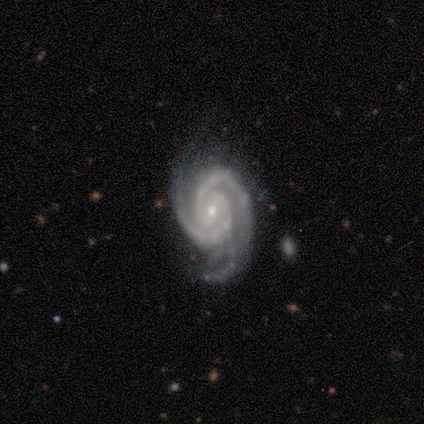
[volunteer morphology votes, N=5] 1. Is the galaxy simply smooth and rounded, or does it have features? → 80% featured or disk, 20% star or artifact, 0% smooth.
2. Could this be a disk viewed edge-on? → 100% no, 0% yes.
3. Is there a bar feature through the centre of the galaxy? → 75% no, 25% weak, 0% strong.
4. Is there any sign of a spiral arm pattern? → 100% yes, 0% no.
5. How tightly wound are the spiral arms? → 50% tight (tied), 50% medium (tied), 0% loose.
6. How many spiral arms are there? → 75% 2, 25% 3, 0% 1, 0% 4, 0% more than 4, 0% can't tell.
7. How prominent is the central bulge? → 100% small, 0% dominant, 0% large, 0% moderate, 0% none.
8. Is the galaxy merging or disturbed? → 50% none, 25% minor disturbance, 25% major disturbance, 0% merger.